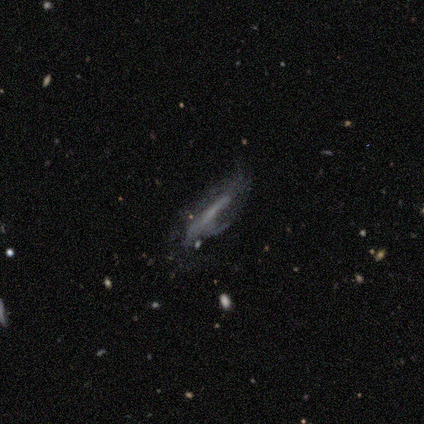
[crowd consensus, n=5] smooth_or_featured: featured or disk (p=0.80) [alt: smooth p=0.20]
disk_edge_on: yes (p=0.75) [alt: no p=0.25]
edge_on_bulge: none (p=0.67) [alt: rounded p=0.33]
merging: minor disturbance (p=0.60) [alt: none p=0.20]